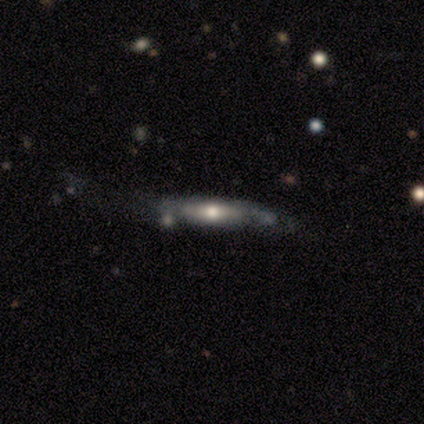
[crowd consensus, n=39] featured or disk 77%, smooth 21%, star or artifact 3%. Down the decision tree: edge-on disk — yes (53%); edge-on bulge — rounded (75%); merging — none (47%).